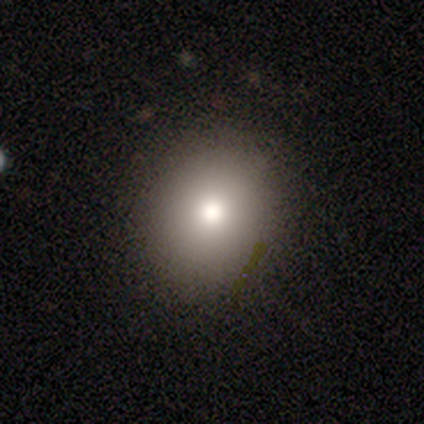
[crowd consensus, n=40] smooth_or_featured: smooth (p=0.65) [alt: featured or disk p=0.25]
how_rounded: round (p=0.69) [alt: in between p=0.27]
merging: none (p=0.53) [alt: minor disturbance p=0.08]